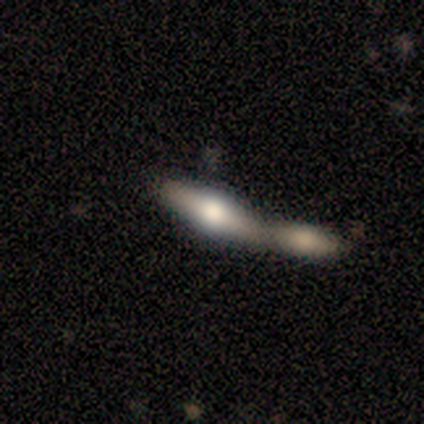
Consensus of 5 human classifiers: This appears to be a featured or disk galaxy (80%) viewed edge-on (100%) with a rounded central bulge (75%). Merging: merger (60%).